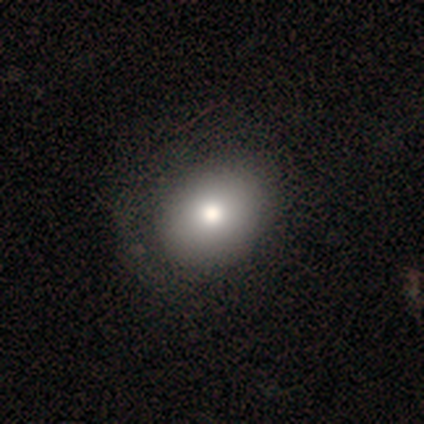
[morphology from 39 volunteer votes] smooth-or-featured: smooth: 77% | featured or disk: 18% | star or artifact: 5%
  how-rounded: round: 50% (tied) | in between: 50% (tied) | cigar-shaped: 0%
  merging: none: 54% | minor disturbance: 5% | major disturbance: 3% | merger: 3%